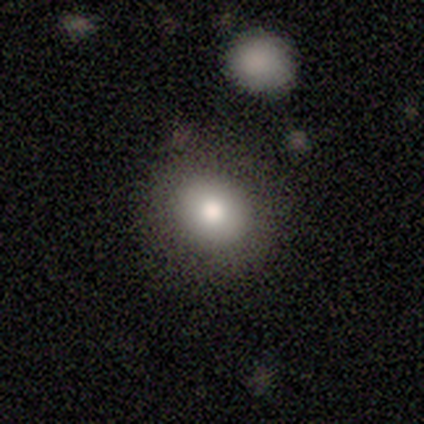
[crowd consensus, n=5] Q: Smooth or featured?
A: smooth (80%); runner-up: featured or disk (20%)
Q: How rounded?
A: round (50%); tied with: in between (50%)
Q: Merging?
A: none (80%); runner-up: major disturbance (20%)